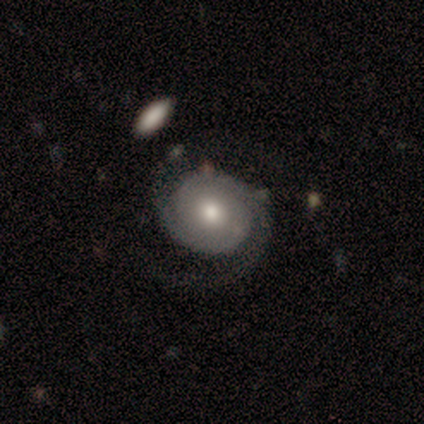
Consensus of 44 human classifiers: smooth-or-featured: featured or disk: 77% | smooth: 14% | star or artifact: 9%
  disk-edge-on: no: 100% | yes: 0%
    bar: no: 88% | strong: 6% | weak: 6%
    has-spiral-arms: yes: 97% | no: 3%
      spiral-winding: tight: 61% | medium: 33% | loose: 6%
      spiral-arm-count: 2: 79% | can't tell: 18% | 1: 3% | 3: 0% | 4: 0% | more than 4: 0%
    bulge-size: moderate: 65% | large: 21% | small: 12% | dominant: 3% | none: 0%
  merging: none: 70% | major disturbance: 18% | minor disturbance: 10% | merger: 2%